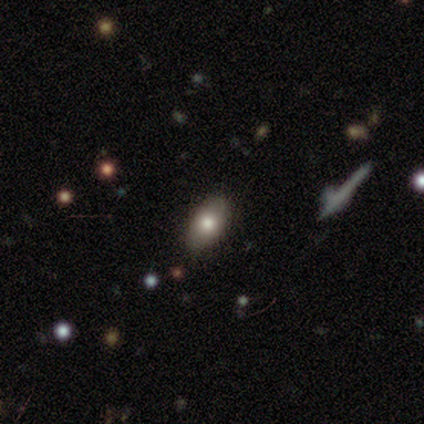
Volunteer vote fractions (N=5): Q: Smooth or featured?
A: smooth (100%)
Q: How rounded?
A: in between (100%)
Q: Merging?
A: none (80%); runner-up: minor disturbance (20%)